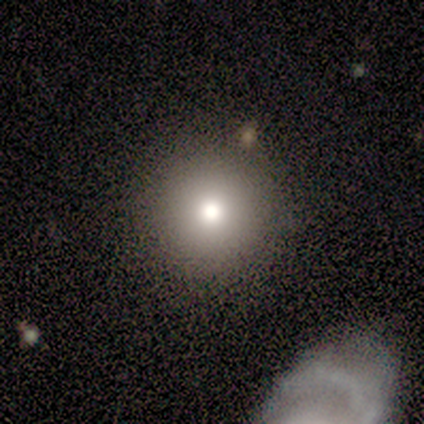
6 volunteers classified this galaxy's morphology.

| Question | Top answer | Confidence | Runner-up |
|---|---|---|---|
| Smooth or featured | smooth | 67% | featured or disk (17%) |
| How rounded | round | 75% | in between (25%) |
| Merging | none | 80% | minor disturbance (20%) |